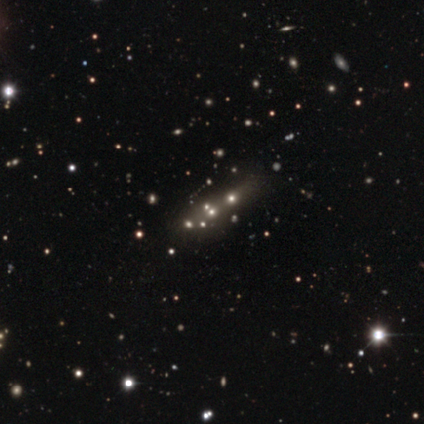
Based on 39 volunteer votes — Smooth or featured: featured or disk — 36% (smooth — 33%)
Edge-on disk: no — 100%
Bar: no — 86% (weak — 14%)
Spiral arms: no — 100%
Bulge size: small — 43% (none — 36%)
Merging: none — 48% (merger — 41%)